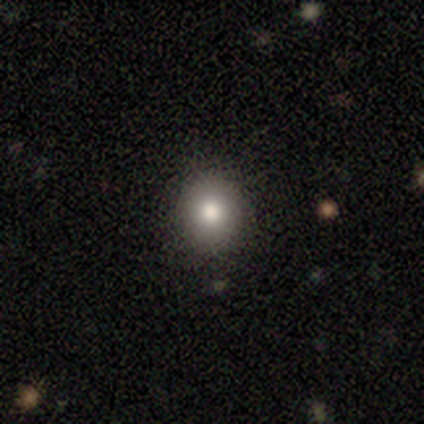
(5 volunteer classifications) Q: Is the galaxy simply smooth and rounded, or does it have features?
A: smooth — 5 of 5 (100%).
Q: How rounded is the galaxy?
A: round — 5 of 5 (100%).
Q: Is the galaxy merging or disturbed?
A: none — 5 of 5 (100%).